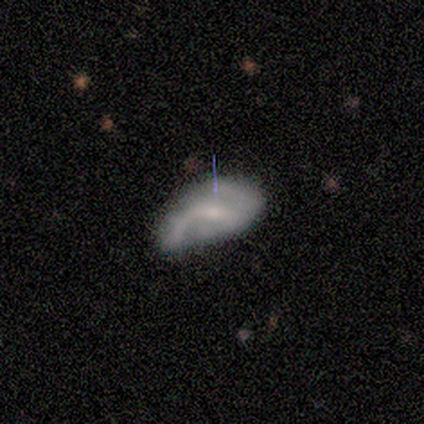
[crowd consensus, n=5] This is likely a featured or disk galaxy (60%). It is clearly not viewed edge-on (100%). Bar: likely no (67%). Spiral arm pattern: likely yes (67%). Spiral arm count: possibly 1 (50%, tied with 2). Spiral winding: possibly medium (50%, tied with loose). Central bulge: likely small (67%). Merging: marginally none (40%, tied with minor disturbance).